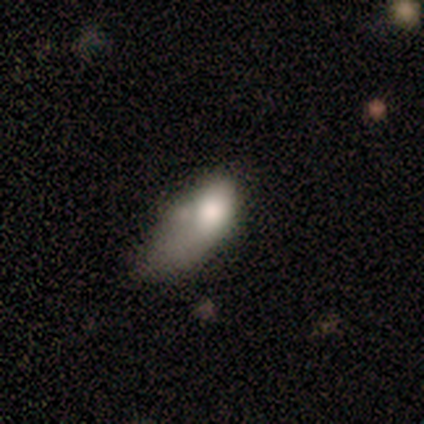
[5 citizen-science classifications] Smooth or featured? smooth (80%)
How rounded? in between (75%)
Merging? minor disturbance (60%)